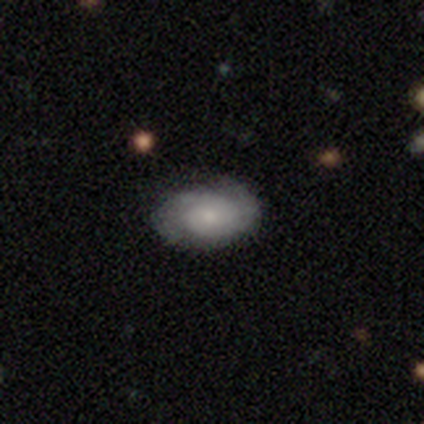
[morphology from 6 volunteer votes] Smooth or featured? 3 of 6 (50%, tied with featured or disk) said smooth. How rounded? 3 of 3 (100%) said in between. Merging? 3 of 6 (50%) said minor disturbance.